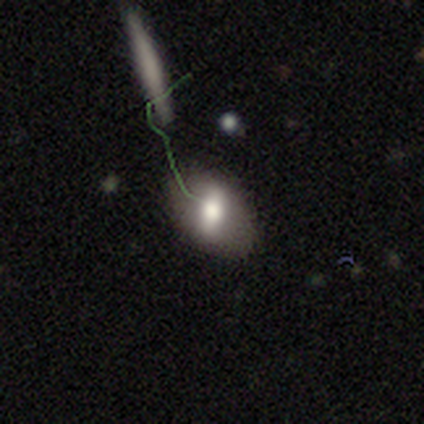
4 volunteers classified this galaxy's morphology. This is likely a smooth galaxy (75%). How rounded: clearly in between (100%). Merging: likely none (75%).